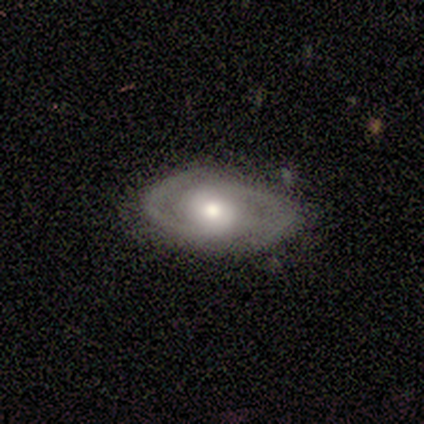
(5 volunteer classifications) Smooth or featured: featured or disk — 80% (smooth — 20%)
Edge-on disk: no — 100%
Bar: no — 100%
Spiral arms: yes — 100%
Spiral winding: medium — 50% (tight — 25%)
Spiral arm count: 2 — 100%
Bulge size: moderate — 100%
Merging: none — 100%